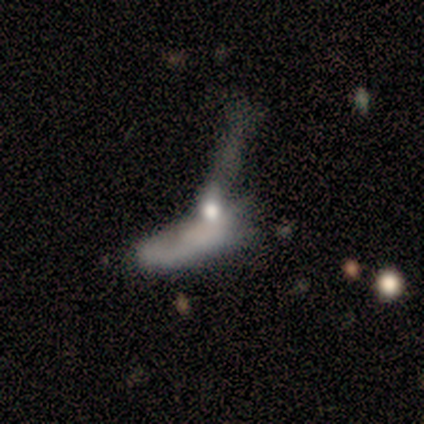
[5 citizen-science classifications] This appears to be a smooth galaxy with no disk features (60%) that is cigar-shaped (67%). Merging: merger (60%).